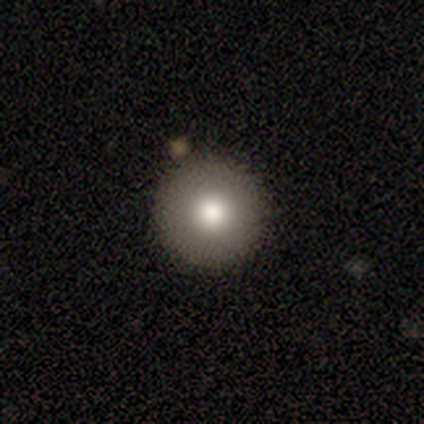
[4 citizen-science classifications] Q: Smooth or featured?
A: smooth (75%); runner-up: star or artifact (25%)
Q: How rounded?
A: round (100%)
Q: Merging?
A: none (100%)